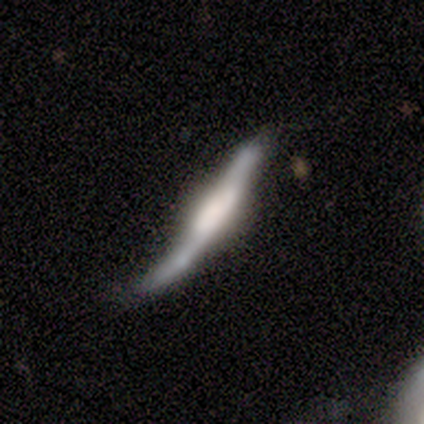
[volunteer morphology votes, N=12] Smooth or featured? 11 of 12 (92%) said featured or disk. Edge-on disk? 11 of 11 (100%) said yes. Edge-on bulge? 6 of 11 (55%) said boxy. Merging? 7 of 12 (58%) said minor disturbance.